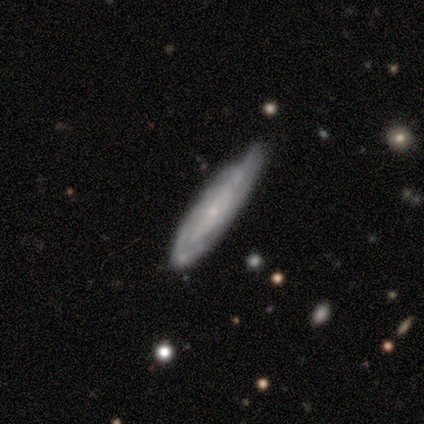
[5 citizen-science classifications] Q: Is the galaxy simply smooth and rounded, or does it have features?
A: featured or disk — 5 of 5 (100%).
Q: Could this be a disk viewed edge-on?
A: no — 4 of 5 (80%).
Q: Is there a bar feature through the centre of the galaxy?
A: no — 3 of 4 (75%).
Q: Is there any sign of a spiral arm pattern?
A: yes — 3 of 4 (75%).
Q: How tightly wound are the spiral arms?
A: tight — 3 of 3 (100%).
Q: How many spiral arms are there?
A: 1 — 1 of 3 (33%, tied with 2 and can't tell).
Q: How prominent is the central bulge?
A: small — 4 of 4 (100%).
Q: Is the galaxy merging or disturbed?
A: none — 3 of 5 (60%).